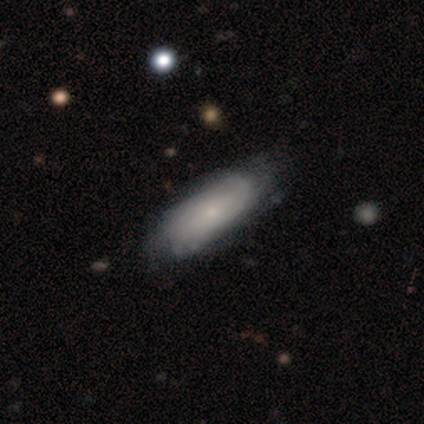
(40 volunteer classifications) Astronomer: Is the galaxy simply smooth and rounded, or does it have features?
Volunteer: featured or disk — 57% (runner-up: smooth, 40%).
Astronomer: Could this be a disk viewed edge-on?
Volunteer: no — 91%.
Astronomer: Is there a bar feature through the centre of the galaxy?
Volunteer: no — 90%.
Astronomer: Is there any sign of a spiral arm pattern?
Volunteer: yes — 76%.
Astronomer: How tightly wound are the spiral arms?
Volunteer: tight — 88%.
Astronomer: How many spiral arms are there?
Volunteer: can't tell — 75%.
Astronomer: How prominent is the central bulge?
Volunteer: small — 81%.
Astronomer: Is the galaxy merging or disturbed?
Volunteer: none — 44% (runner-up: minor disturbance, 21%).